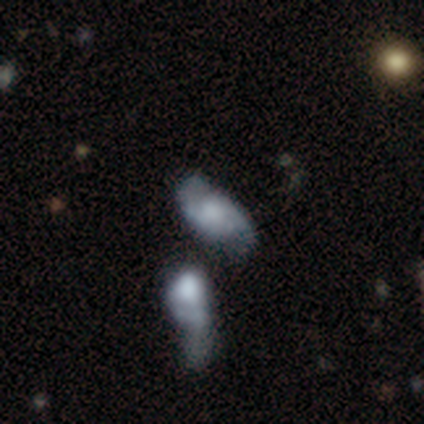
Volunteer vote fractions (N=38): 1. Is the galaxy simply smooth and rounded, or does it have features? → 61% featured or disk, 29% smooth, 11% star or artifact.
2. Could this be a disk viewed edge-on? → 96% no, 4% yes.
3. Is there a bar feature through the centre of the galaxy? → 73% no, 27% weak, 0% strong.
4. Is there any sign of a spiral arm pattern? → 82% yes, 18% no.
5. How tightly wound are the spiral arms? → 33% tight (tied), 33% medium (tied), 33% loose (tied).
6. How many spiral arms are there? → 89% 2, 11% can't tell, 0% 1, 0% 3, 0% 4, 0% more than 4.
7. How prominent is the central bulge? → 36% moderate (tied), 36% none (tied), 18% small, 5% dominant, 5% large.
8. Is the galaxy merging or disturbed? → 38% none, 26% merger, 18% minor disturbance, 18% major disturbance.